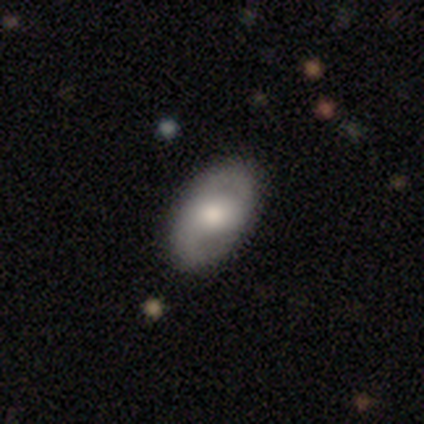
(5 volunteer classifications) Q: Smooth or featured?
A: featured or disk (60%); runner-up: smooth (40%)
Q: Edge-on disk?
A: no (100%)
Q: Bar?
A: no (100%)
Q: Spiral arms?
A: yes (100%)
Q: Spiral winding?
A: tight (67%); runner-up: medium (33%)
Q: Spiral arm count?
A: 2 (100%)
Q: Bulge size?
A: moderate (67%); runner-up: large (33%)
Q: Merging?
A: none (100%)